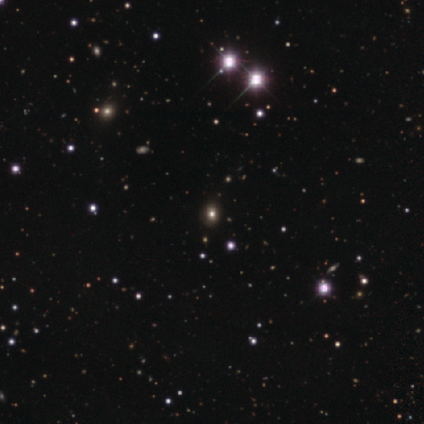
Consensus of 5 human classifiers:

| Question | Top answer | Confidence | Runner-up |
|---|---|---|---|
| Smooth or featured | star or artifact | 60% | smooth (20%) |